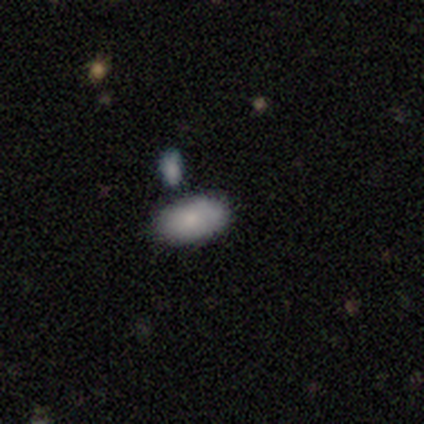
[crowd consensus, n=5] Smooth or featured: smooth — 80% (featured or disk — 20%)
How rounded: in between — 75% (round — 25%)
Merging: none — 80% (minor disturbance — 20%)